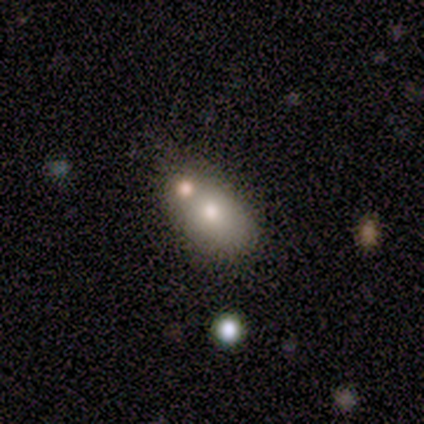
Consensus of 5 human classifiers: Volunteers were most divided on "merging": minor disturbance: 50%, none: 25%, merger: 25%, major disturbance: 0%. More confident: how rounded — in between (100%); smooth or featured — smooth (60%).